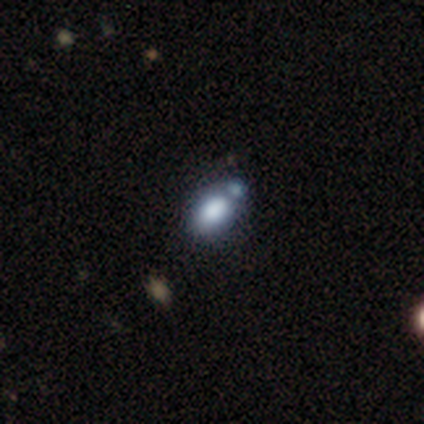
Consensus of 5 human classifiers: smooth_or_featured: smooth (p=1.00)
how_rounded: in between (p=0.80) [alt: round p=0.20]
merging: none (p=0.40) [tied with: merger p=0.40]